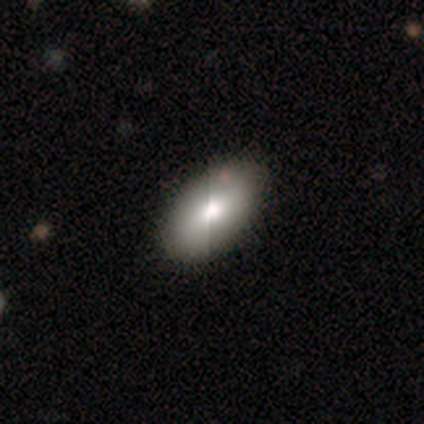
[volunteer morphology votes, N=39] smooth_or_featured: smooth (p=0.74) [alt: featured or disk p=0.21]
how_rounded: in between (p=0.93) [alt: round p=0.07]
merging: none (p=0.51) [alt: minor disturbance p=0.05]